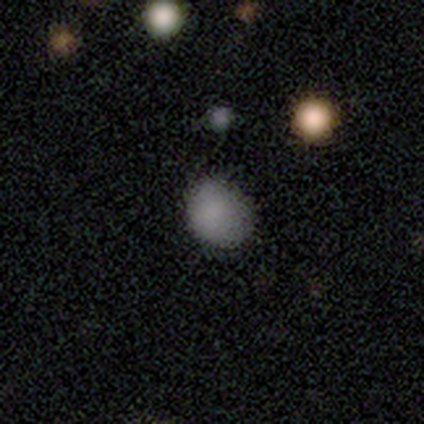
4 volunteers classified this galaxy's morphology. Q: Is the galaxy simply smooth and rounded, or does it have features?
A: smooth — 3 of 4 (75%).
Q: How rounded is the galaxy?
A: round — 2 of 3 (67%).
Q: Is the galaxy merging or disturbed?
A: none — 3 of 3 (100%).